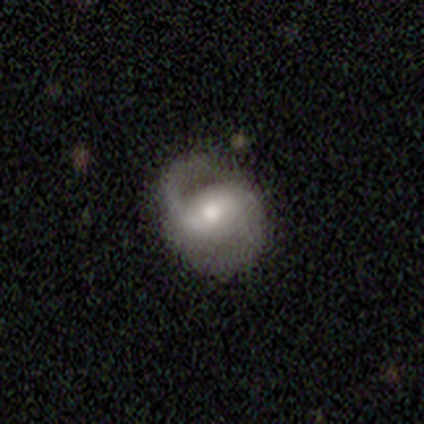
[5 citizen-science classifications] This appears to be a featured or disk galaxy (80%) with a strong bar (50%, tied with weak), 2 (100%) medium (75%) spiral arms (100%) and a moderate central bulge (100%). Merging: none (80%).